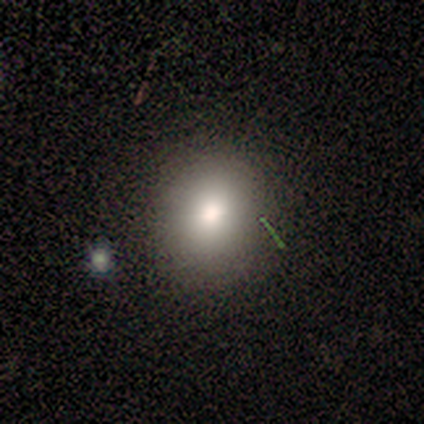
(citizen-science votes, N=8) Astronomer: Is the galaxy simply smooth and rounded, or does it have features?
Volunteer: smooth — 100%.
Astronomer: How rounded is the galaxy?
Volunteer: round — 100%.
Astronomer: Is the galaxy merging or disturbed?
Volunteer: none — 100%.